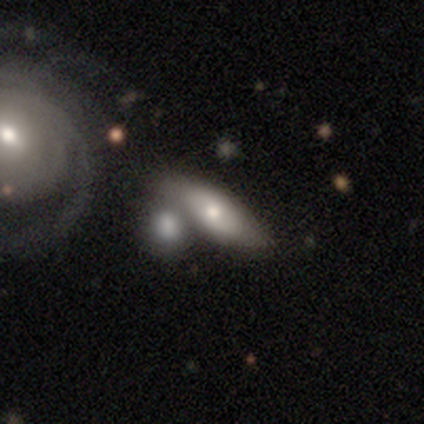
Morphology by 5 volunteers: A smooth galaxy with no disk features (80%) that is in between round and cigar-shaped (75%). Merging: merger (60%).